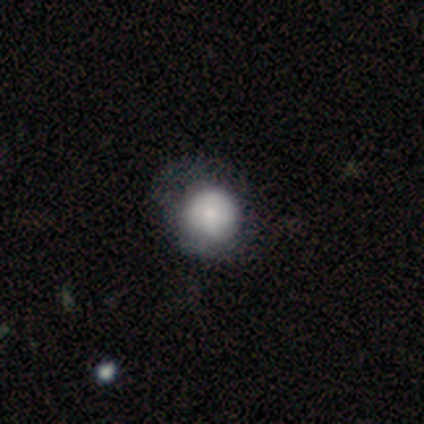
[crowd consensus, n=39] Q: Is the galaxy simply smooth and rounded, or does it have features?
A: smooth — 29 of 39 (74%).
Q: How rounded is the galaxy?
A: round — 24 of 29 (83%).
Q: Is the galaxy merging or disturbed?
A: none — 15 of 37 (41%).